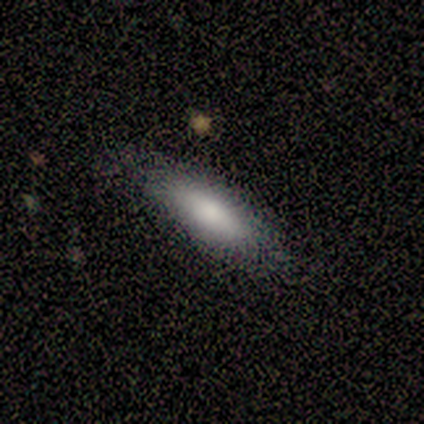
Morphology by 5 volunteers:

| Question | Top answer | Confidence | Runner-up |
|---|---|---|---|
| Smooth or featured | smooth | 100% | — |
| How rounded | cigar-shaped | 60% | in between (40%) |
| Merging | none | 80% | major disturbance (20%) |